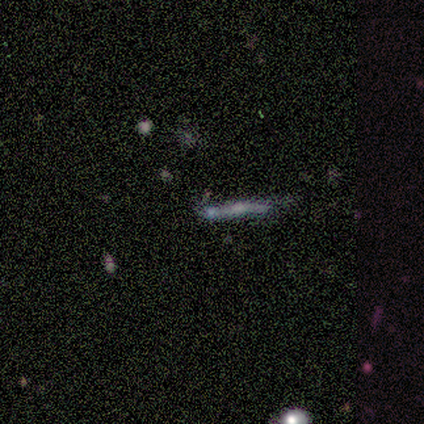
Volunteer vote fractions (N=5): smooth-or-featured: featured or disk: 60% | star or artifact: 40% | smooth: 0%
  disk-edge-on: yes: 100% | no: 0%
    edge-on-bulge: none: 67% | rounded: 33% | boxy: 0%
  merging: none: 100% | minor disturbance: 0% | major disturbance: 0% | merger: 0%